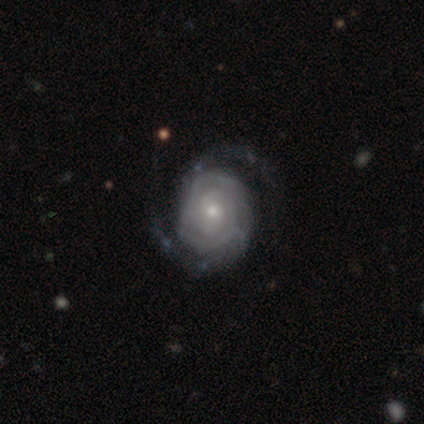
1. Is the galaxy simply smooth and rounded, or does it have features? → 89% featured or disk, 8% smooth, 3% star or artifact.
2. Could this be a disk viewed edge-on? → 96% no, 4% yes.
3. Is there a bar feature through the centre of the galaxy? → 83% no, 15% weak, 3% strong.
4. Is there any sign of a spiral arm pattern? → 97% yes, 3% no.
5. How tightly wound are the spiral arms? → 73% tight, 22% medium, 5% loose.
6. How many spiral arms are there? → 78% 2, 14% can't tell, 5% 3, 1% 4, 1% more than 4, 0% 1.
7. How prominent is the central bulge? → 76% small, 21% moderate, 1% large, 1% none, 0% dominant.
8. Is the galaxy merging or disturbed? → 78% none, 14% minor disturbance, 7% major disturbance, 1% merger.